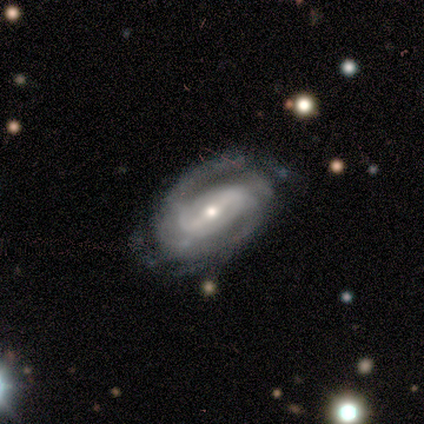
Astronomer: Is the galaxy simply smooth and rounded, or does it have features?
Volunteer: featured or disk — 83%.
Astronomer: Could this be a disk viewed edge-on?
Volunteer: no — 90%.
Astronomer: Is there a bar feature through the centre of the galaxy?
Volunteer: strong — 89%.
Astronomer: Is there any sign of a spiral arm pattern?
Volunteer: yes — 100%.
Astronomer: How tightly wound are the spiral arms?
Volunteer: tight — 67%.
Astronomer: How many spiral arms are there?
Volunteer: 2 — 56%.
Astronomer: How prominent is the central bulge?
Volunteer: small — 56% (runner-up: moderate, 44%).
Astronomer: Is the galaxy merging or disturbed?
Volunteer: none — 67%.